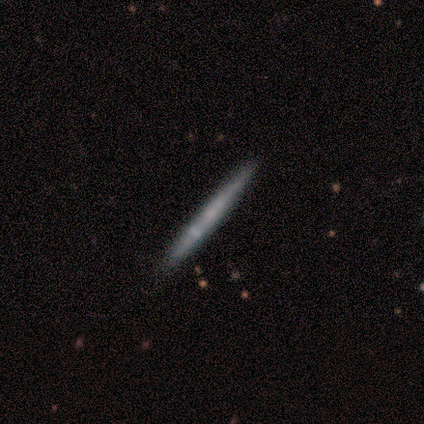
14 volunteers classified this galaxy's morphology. Smooth or featured?
  - featured or disk: 57% *
  - smooth: 36%
  - star or artifact: 7%
Edge-on disk?
  - yes: 100% *
  - no: 0%
Edge-on bulge?
  - none: 75% *
  - rounded: 25%
  - boxy: 0%
Merging?
  - none: 92% *
  - minor disturbance: 8%
  - major disturbance: 0%
  - merger: 0%